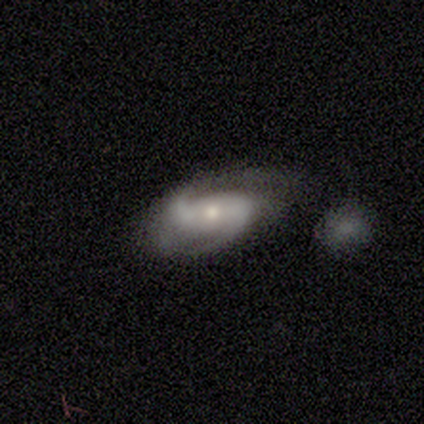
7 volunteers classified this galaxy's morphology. Smooth or featured? featured or disk (100%)
Edge-on disk? no (100%)
Bar? no (57%)
Spiral arms? yes (100%)
Spiral winding? loose (57%)
Spiral arm count? 2 (100%)
Bulge size? small (71%)
Merging? none (43%)